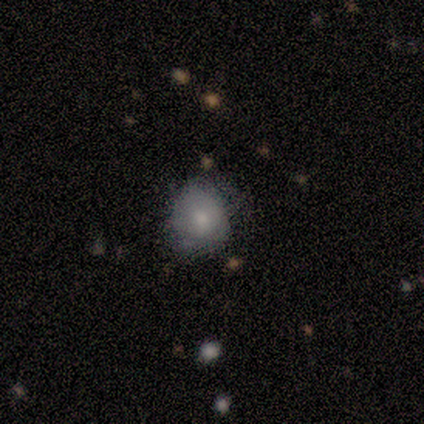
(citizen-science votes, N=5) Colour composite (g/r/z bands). It shows a smooth galaxy with no disk features (80%) that is round (50%, tied with in between). Merging: none (50%, tied with minor disturbance).